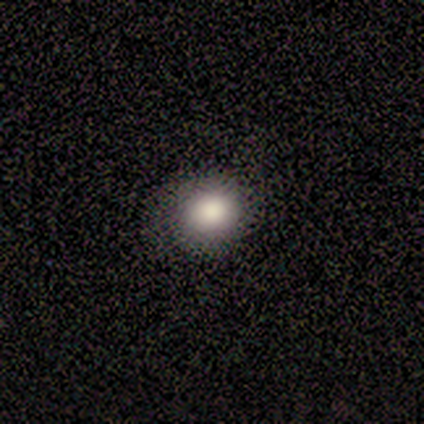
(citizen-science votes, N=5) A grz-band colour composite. It shows a smooth galaxy with no disk features (100%) that is round (100%). Merging: none (80%).